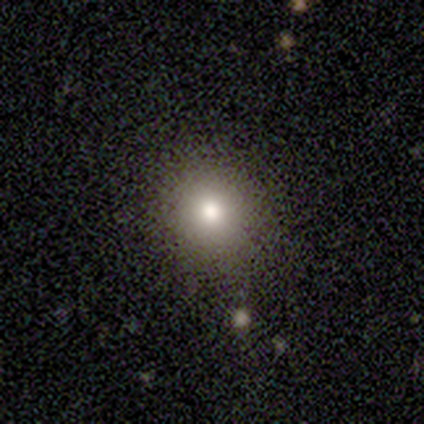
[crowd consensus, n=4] This is clearly a smooth galaxy (100%). How rounded: likely round (75%). Merging: clearly none (100%).